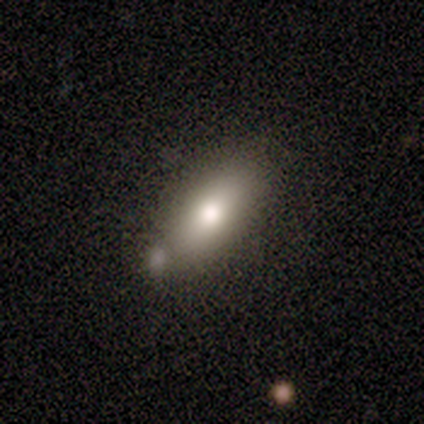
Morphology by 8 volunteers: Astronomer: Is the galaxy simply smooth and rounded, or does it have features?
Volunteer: smooth — 88%.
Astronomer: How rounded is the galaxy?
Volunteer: in between — 57% (runner-up: cigar-shaped, 43%).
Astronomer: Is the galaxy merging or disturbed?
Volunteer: none — 88%.